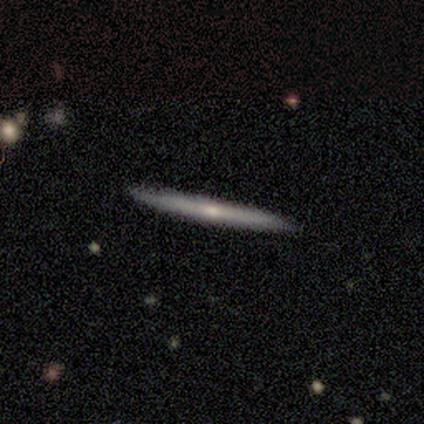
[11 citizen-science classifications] Smooth or featured? 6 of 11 (55%) said smooth. How rounded? 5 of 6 (83%) said cigar-shaped. Merging? 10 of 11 (91%) said none.